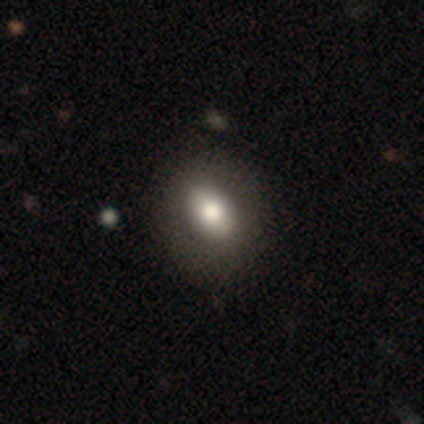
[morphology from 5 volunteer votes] A smooth galaxy with no disk features (80%) that is in between round and cigar-shaped (75%).

Vote fractions:
- Smooth or featured? smooth: 80% / featured or disk: 20% / star or artifact: 0%
- How rounded? in between: 75% / round: 25% / cigar-shaped: 0%
- Merging? none: 100% / minor disturbance: 0% / major disturbance: 0% / merger: 0%